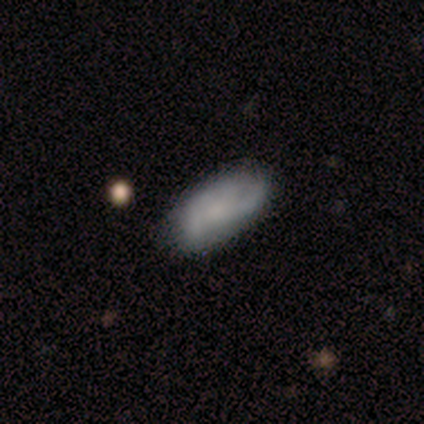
Volunteers were most divided on "smooth or featured": featured or disk: 60%, smooth: 40%, star or artifact: 0%. More confident: edge-on disk — no (100%); spiral arms — yes (100%); bar — no (67%); spiral winding — medium (67%); spiral arm count — can't tell (67%); bulge size — small (67%); merging — none (60%).